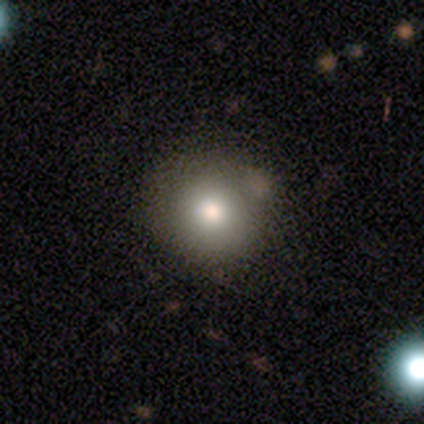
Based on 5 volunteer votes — smooth-or-featured: smooth: 80% | featured or disk: 20% | star or artifact: 0%
  how-rounded: round: 100% | in between: 0% | cigar-shaped: 0%
  merging: none: 60% | minor disturbance: 40% | major disturbance: 0% | merger: 0%